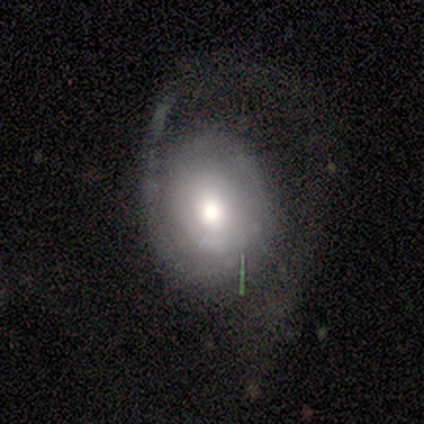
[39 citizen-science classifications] This is likely a featured or disk galaxy (67%). It is clearly not viewed edge-on (100%). Bar: clearly no (81%). Spiral arm pattern: possibly yes (58%). Spiral arm count: possibly 1 (47%). Spiral winding: likely tight (60%). Central bulge: likely moderate (62%). Merging: possibly major disturbance (56%).